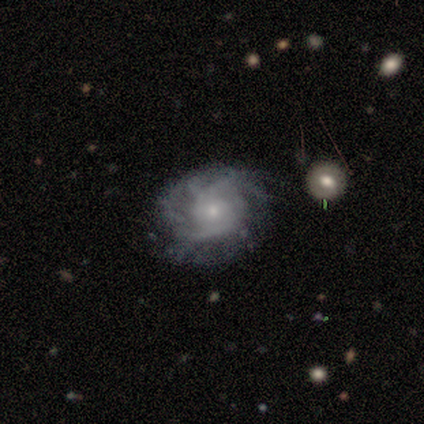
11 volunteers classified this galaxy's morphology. smooth-or-featured: featured or disk: 100% | smooth: 0% | star or artifact: 0%
  disk-edge-on: no: 100% | yes: 0%
    bar: no: 82% | weak: 18% | strong: 0%
    has-spiral-arms: yes: 91% | no: 9%
      spiral-winding: tight: 50% (tied) | medium: 50% (tied) | loose: 0%
      spiral-arm-count: can't tell: 50% | 2: 30% | 3: 20% | 1: 0% | 4: 0% | more than 4: 0%
    bulge-size: small: 82% | large: 9% | moderate: 9% | dominant: 0% | none: 0%
  merging: none: 64% | minor disturbance: 27% | merger: 9% | major disturbance: 0%